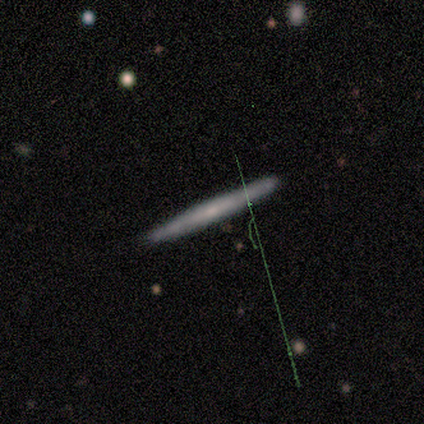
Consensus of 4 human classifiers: A featured or disk galaxy (75%) viewed edge-on (100%) with no central bulge (100%).

Vote fractions:
- Smooth or featured? featured or disk: 75% / smooth: 25% / star or artifact: 0%
- Edge-on disk? yes: 100% / no: 0%
- Edge-on bulge? none: 100% / boxy: 0% / rounded: 0%
- Merging? none: 100% / minor disturbance: 0% / major disturbance: 0% / merger: 0%